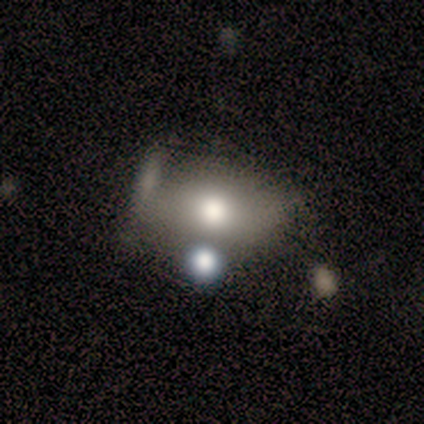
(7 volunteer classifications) Smooth or featured? featured or disk (43%)
Edge-on disk? no (100%)
Bar? no (100%)
Spiral arms? no (100%)
Bulge size? moderate (67%)
Merging? none (40%, tied with merger)